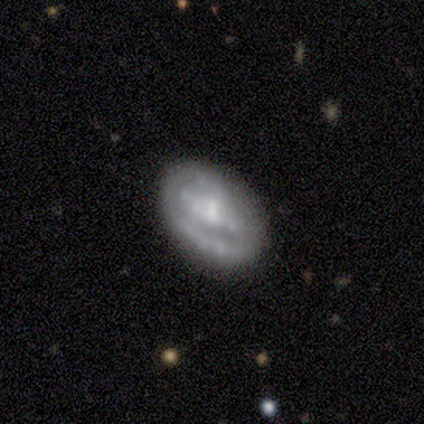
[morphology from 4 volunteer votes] This is possibly a smooth galaxy (50%, tied with featured or disk). How rounded: possibly round (50%, tied with in between). Merging: clearly none (100%).